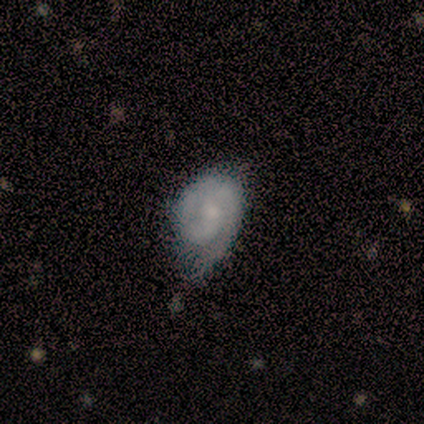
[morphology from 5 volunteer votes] Smooth or featured? featured or disk (80%)
Edge-on disk? no (100%)
Bar? no (75%)
Spiral arms? yes (75%)
Spiral winding? tight (100%)
Spiral arm count? 2 (100%)
Bulge size? small (50%)
Merging? minor disturbance (60%)